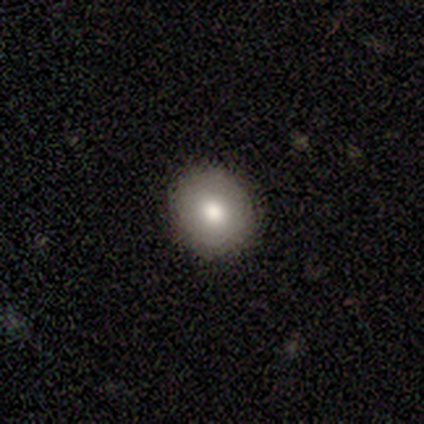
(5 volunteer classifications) Morphology: type=smooth (80%); roundness=round (100%); merging=none (100%).